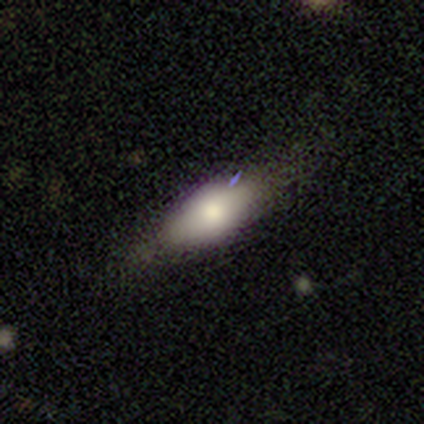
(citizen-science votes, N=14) Q: Smooth or featured?
A: smooth (64%); runner-up: featured or disk (36%)
Q: How rounded?
A: in between (56%); runner-up: cigar-shaped (44%)
Q: Merging?
A: none (57%); runner-up: minor disturbance (21%)